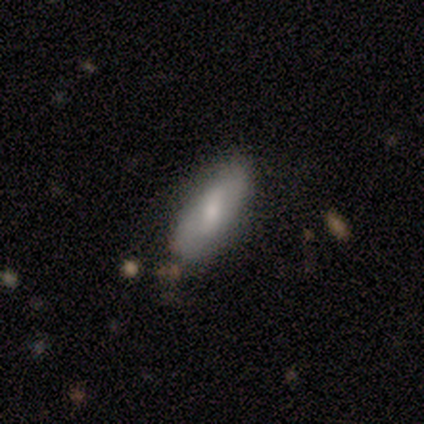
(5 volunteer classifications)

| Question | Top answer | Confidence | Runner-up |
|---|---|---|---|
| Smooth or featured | smooth | 80% | featured or disk (20%) |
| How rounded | in between | 75% | cigar-shaped (25%) |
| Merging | none | 80% | minor disturbance (20%) |